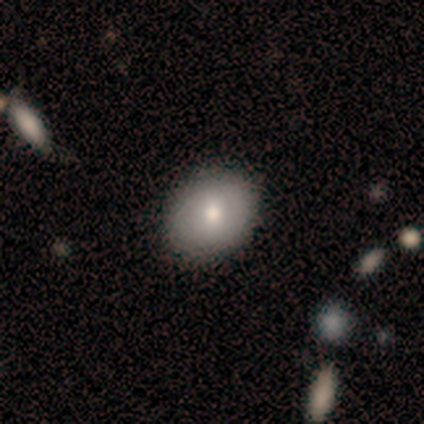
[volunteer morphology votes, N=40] This is likely a smooth galaxy (75%). How rounded: possibly in between (57%). Merging: clearly none (89%).